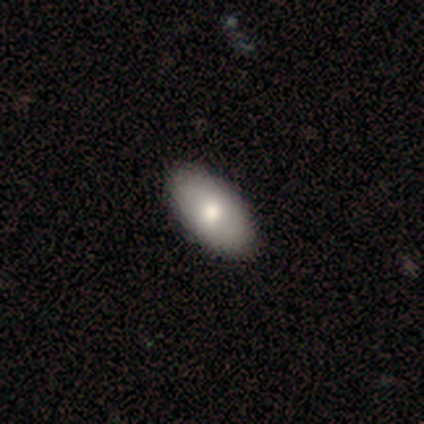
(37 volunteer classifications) This appears to be a smooth galaxy with no disk features (70%) that is in between round and cigar-shaped (96%). Merging: none (66%).